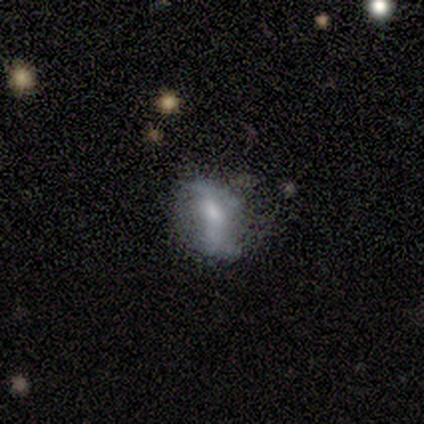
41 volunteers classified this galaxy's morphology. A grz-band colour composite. It shows a featured or disk galaxy (46%) with a weak bar (44%, tied with no), 2 (77%) loose (54%) spiral arms (72%) and a small central bulge (44%). Merging: none (43%).